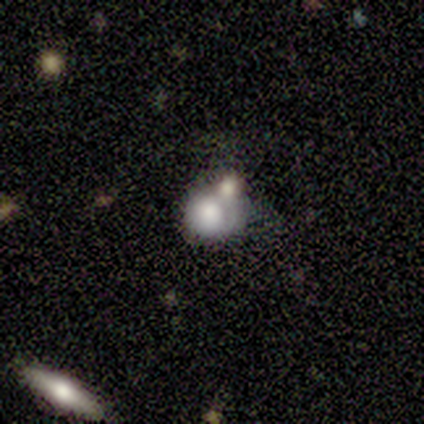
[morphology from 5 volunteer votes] This appears to be a smooth galaxy with no disk features (80%) that is round (75%). Merging: minor disturbance (40%, tied with merger).